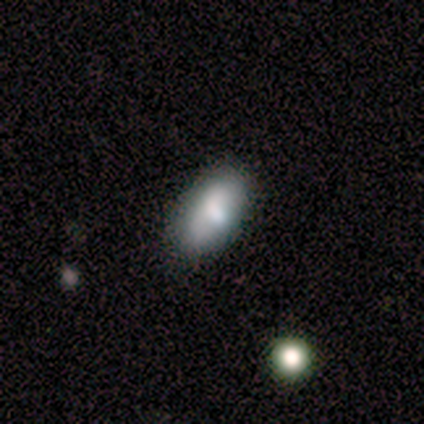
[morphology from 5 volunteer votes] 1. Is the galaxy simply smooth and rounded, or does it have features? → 100% smooth, 0% featured or disk, 0% star or artifact.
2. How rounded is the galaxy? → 100% in between, 0% round, 0% cigar-shaped.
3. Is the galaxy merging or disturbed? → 100% none, 0% minor disturbance, 0% major disturbance, 0% merger.